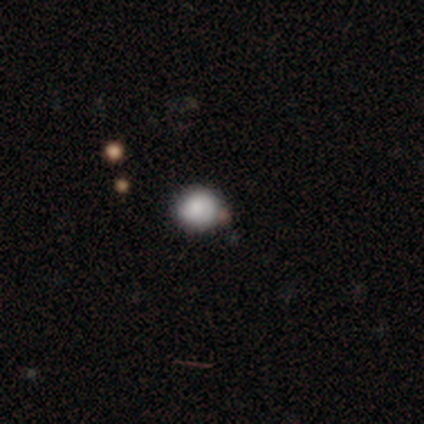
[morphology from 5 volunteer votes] Smooth or featured? smooth (100%)
How rounded? round (80%)
Merging? none (60%)